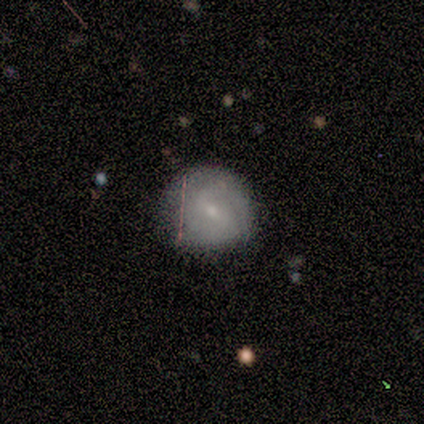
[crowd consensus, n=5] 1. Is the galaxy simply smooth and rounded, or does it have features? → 80% smooth, 20% featured or disk, 0% star or artifact.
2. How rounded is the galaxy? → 100% round, 0% in between, 0% cigar-shaped.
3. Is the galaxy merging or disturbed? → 100% none, 0% minor disturbance, 0% major disturbance, 0% merger.